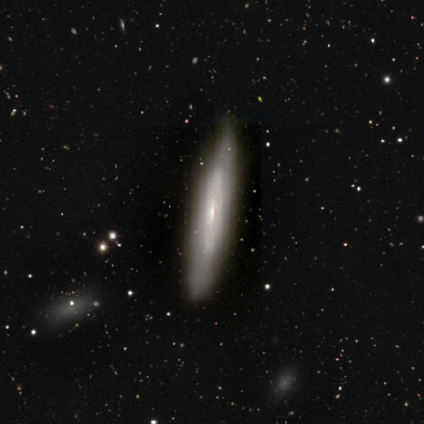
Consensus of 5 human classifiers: Smooth or featured? featured or disk (60%)
Edge-on disk? no (67%)
Bar? weak (100%)
Spiral arms? no (100%)
Bulge size? small (100%)
Merging? none (60%)